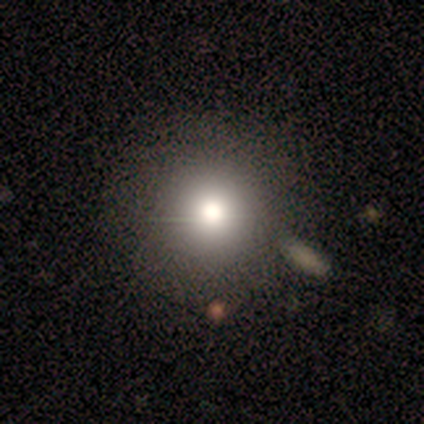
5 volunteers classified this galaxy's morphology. smooth 40% (tied), star or artifact 40% (tied), featured or disk 20%. Down the decision tree: how rounded — round (100%); merging — none (100%).